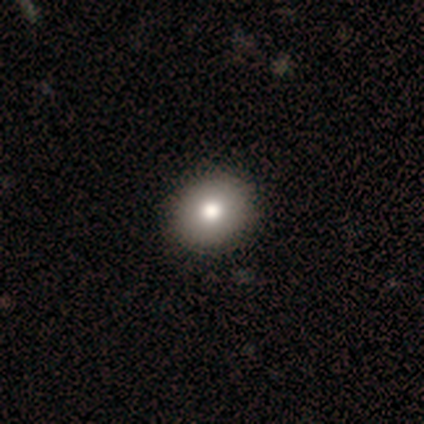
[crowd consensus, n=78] Smooth or featured? smooth (78%)
How rounded? round (59%)
Merging? none (48%)